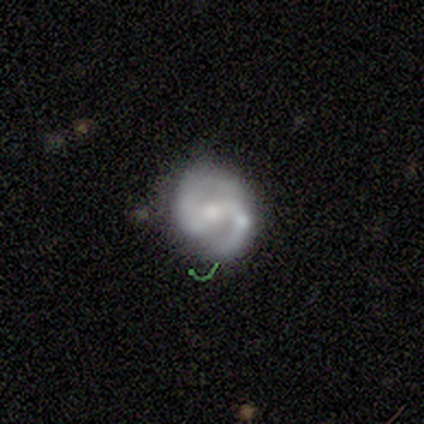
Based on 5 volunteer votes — Smooth or featured: featured or disk — 80% (smooth — 20%)
Edge-on disk: no — 100%
Bar: strong — 50% (weak — 25%)
Spiral arms: yes — 100%
Spiral winding: medium — 100%
Spiral arm count: 2 — 100%
Bulge size: moderate — 75% (small — 25%)
Merging: none — 80% (minor disturbance — 20%)